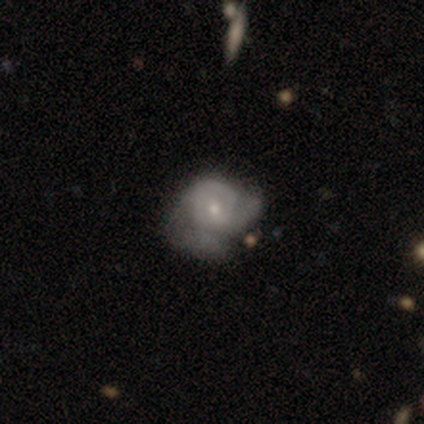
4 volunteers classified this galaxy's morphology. A smooth galaxy with no disk features (50%, tied with featured or disk) that is round (50%, tied with in between).

Vote fractions:
- Smooth or featured? smooth: 50% (tied) / featured or disk: 50% (tied) / star or artifact: 0%
- How rounded? round: 50% (tied) / in between: 50% (tied) / cigar-shaped: 0%
- Merging? major disturbance: 50% / none: 25% / minor disturbance: 25% / merger: 0%